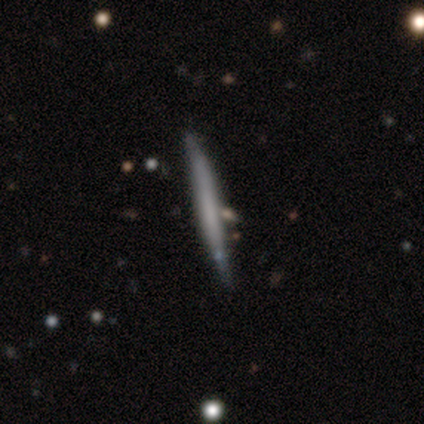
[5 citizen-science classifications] This appears to be a smooth galaxy with no disk features (40%, tied with featured or disk) that is cigar-shaped (100%). Merging: none (50%, tied with minor disturbance).